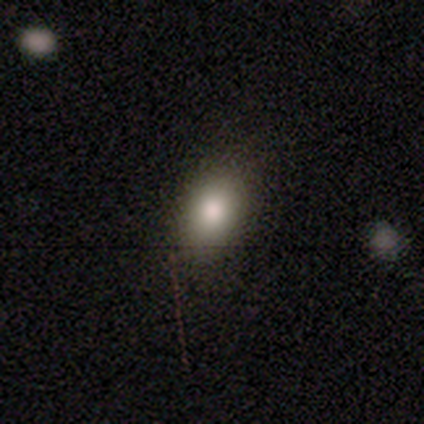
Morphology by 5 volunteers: Smooth or featured? 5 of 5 (100%) said smooth. How rounded? 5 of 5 (100%) said in between. Merging? 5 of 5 (100%) said none.